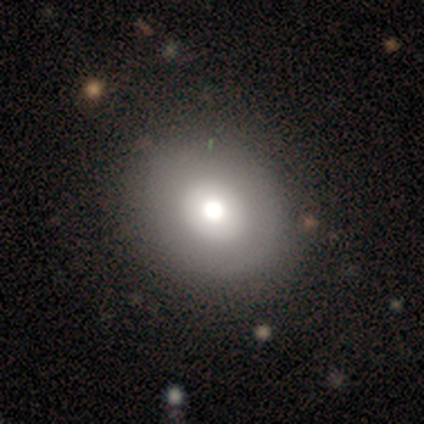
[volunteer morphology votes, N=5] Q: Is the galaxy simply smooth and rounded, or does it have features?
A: smooth — 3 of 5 (60%).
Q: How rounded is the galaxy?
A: round — 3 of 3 (100%).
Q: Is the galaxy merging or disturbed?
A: none — 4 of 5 (80%).